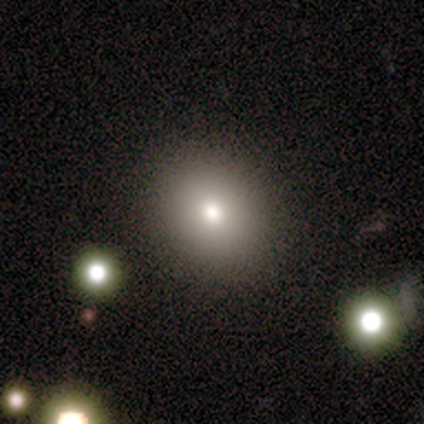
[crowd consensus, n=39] Smooth or featured? 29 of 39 (74%) said smooth. How rounded? 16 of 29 (55%) said round. Merging? 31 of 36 (86%) said none.